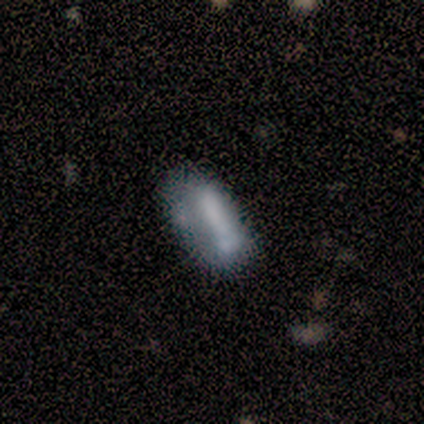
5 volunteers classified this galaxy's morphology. smooth 80%, featured or disk 20%, star or artifact 0%. Down the decision tree: how rounded — in between (100%); merging — none (40%, tied with minor disturbance).